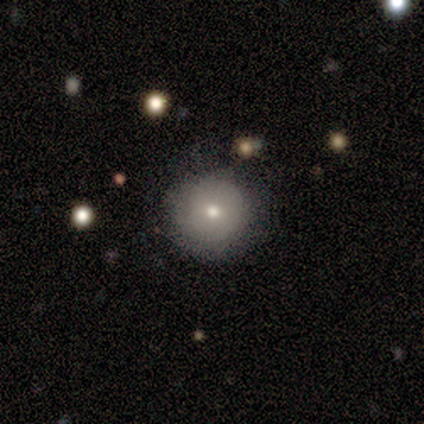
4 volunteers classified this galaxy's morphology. type=smooth (50%, tied with featured or disk); roundness=round (100%); merging=none (75%).